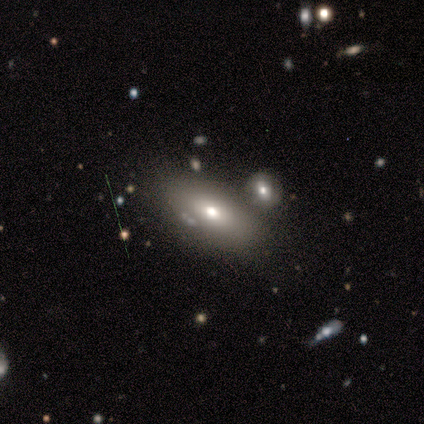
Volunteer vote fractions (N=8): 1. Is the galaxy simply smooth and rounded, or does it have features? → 88% smooth, 12% featured or disk, 0% star or artifact.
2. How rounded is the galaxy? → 86% in between, 14% round, 0% cigar-shaped.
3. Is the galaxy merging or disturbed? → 38% minor disturbance, 25% none, 25% merger, 12% major disturbance.